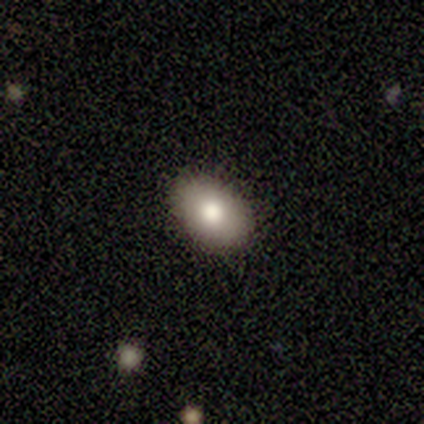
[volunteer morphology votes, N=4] Volunteers were most divided on "merging": none: 75%, minor disturbance: 25%, major disturbance: 0%, merger: 0%. More confident: smooth or featured — smooth (100%); how rounded — in between (100%).